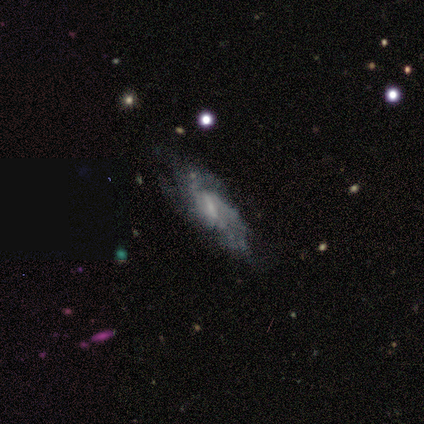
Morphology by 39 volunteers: Smooth or featured? featured or disk (79%)
Edge-on disk? no (81%)
Bar? weak (44%)
Spiral arms? yes (68%)
Spiral winding? tight (41%, tied with medium)
Spiral arm count? can't tell (53%)
Bulge size? small (52%)
Merging? none (57%)